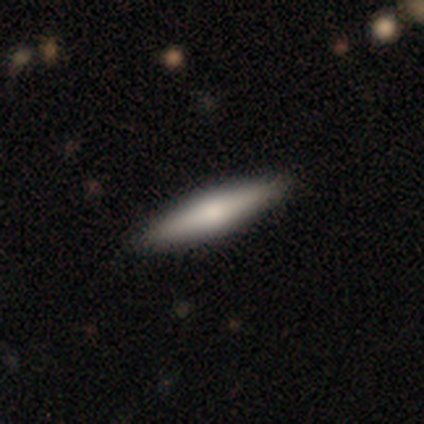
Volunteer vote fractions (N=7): Volunteers were most divided on "edge-on bulge": rounded: 60%, boxy: 40%, none: 0%. More confident: edge-on disk — yes (100%); merging — none (86%); smooth or featured — featured or disk (71%).